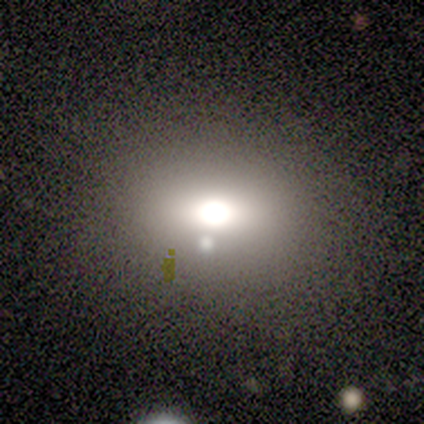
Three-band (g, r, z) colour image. It shows a smooth galaxy with no disk features (54%) that is in between round and cigar-shaped (86%). Merging: none (67%).